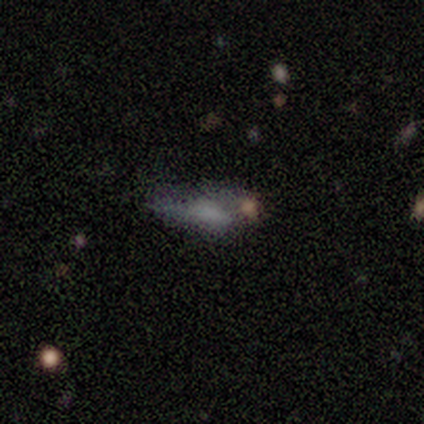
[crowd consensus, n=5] Smooth or featured? featured or disk (60%)
Edge-on disk? no (67%)
Bar? no (100%)
Spiral arms? no (100%)
Bulge size? none (100%)
Merging? none (50%, tied with major disturbance)